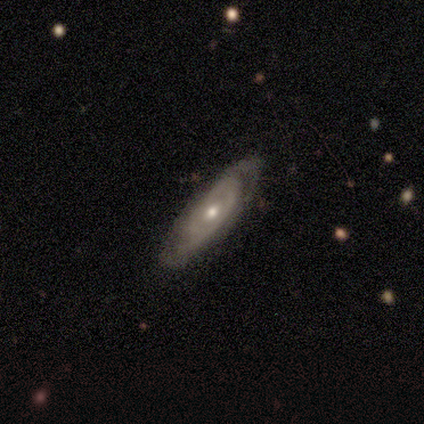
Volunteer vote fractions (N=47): Smooth or featured? featured or disk (83%)
Edge-on disk? no (90%)
Bar? no (89%)
Spiral arms? yes (63%)
Spiral winding? tight (59%)
Spiral arm count? 2 (55%)
Bulge size? moderate (60%)
Merging? none (70%)